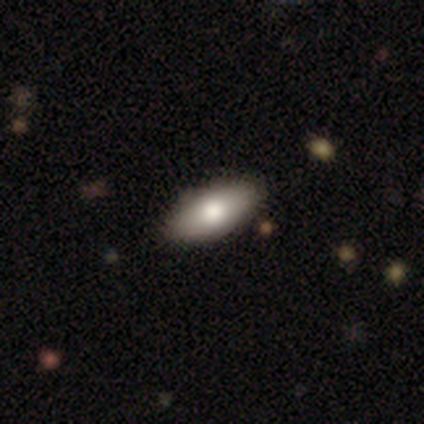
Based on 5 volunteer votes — smooth_or_featured: smooth (p=0.60) [alt: featured or disk p=0.40]
how_rounded: in between (p=1.00)
merging: none (p=1.00)